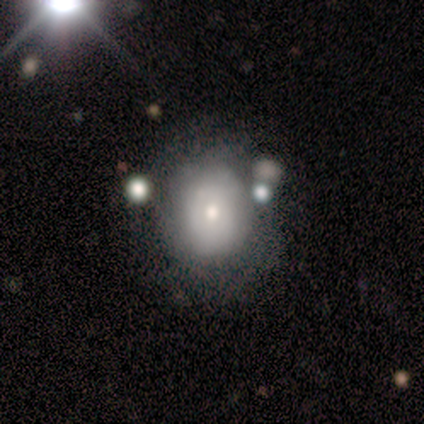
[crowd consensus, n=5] A smooth galaxy with no disk features (80%) that is in between round and cigar-shaped (100%).

Vote fractions:
- Smooth or featured? smooth: 80% / featured or disk: 20% / star or artifact: 0%
- How rounded? in between: 100% / round: 0% / cigar-shaped: 0%
- Merging? minor disturbance: 60% / none: 20% / merger: 20% / major disturbance: 0%